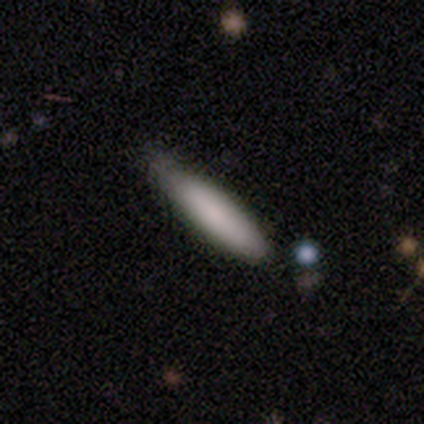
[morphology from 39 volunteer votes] Smooth or featured? 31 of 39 (79%) said smooth. How rounded? 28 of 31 (90%) said cigar-shaped. Merging? 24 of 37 (65%) said none.